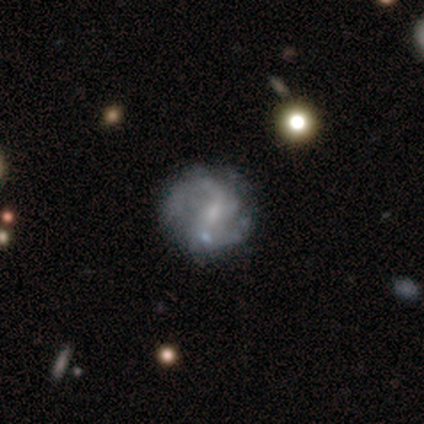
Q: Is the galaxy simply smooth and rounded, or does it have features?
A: featured or disk — 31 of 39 (79%).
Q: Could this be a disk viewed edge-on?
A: no — 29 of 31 (94%).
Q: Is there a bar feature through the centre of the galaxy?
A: weak — 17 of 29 (59%).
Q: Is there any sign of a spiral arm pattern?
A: yes — 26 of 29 (90%).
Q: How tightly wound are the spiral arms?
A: loose — 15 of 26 (58%).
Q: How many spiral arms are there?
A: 2 — 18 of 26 (69%).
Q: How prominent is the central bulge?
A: small — 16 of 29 (55%).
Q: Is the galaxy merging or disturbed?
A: none — 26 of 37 (70%).